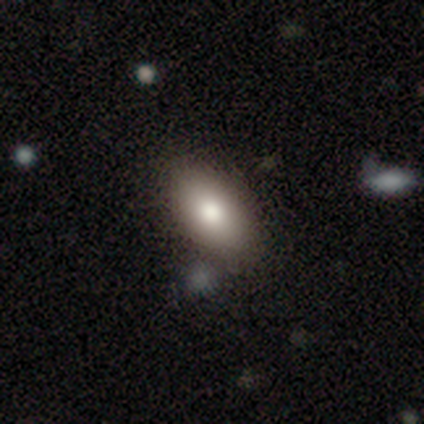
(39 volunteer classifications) A smooth galaxy with no disk features (79%) that is in between round and cigar-shaped (94%).

Vote fractions:
- Smooth or featured? smooth: 79% / featured or disk: 13% / star or artifact: 8%
- How rounded? in between: 94% / round: 6% / cigar-shaped: 0%
- Merging? none: 72% / minor disturbance: 25% / merger: 3% / major disturbance: 0%